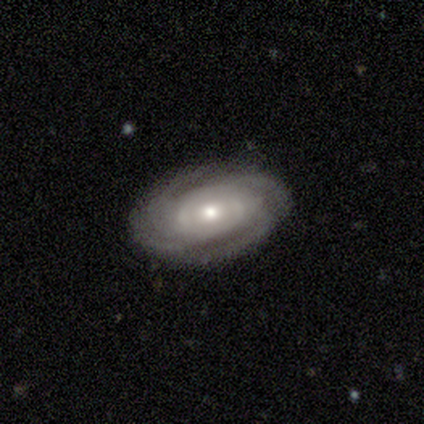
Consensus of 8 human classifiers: This is clearly a featured or disk galaxy (100%). It is clearly not viewed edge-on (100%). Bar: likely no (62%). Spiral arm pattern: clearly yes (100%). Spiral arm count: possibly 4 (50%, tied with can't tell). Spiral winding: likely tight (62%). Central bulge: likely moderate (75%). Merging: clearly none (88%).